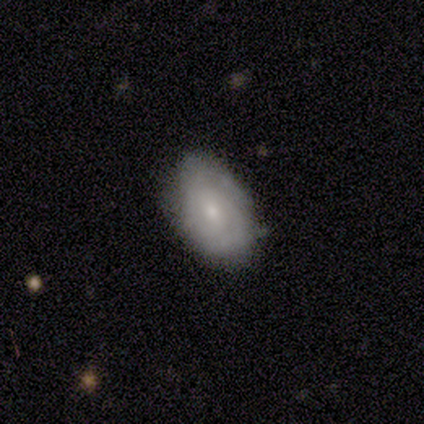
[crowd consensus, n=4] Q: Smooth or featured?
A: smooth (50%); tied with: featured or disk (50%)
Q: How rounded?
A: in between (100%)
Q: Merging?
A: none (100%)